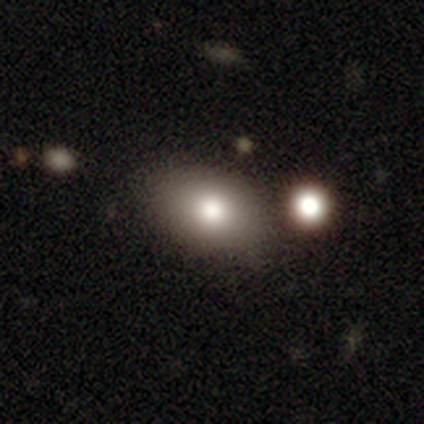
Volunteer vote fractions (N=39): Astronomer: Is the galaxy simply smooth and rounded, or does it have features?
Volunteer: smooth — 79%.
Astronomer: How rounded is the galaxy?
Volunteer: in between — 77%.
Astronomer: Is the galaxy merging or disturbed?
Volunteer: none — 75%.